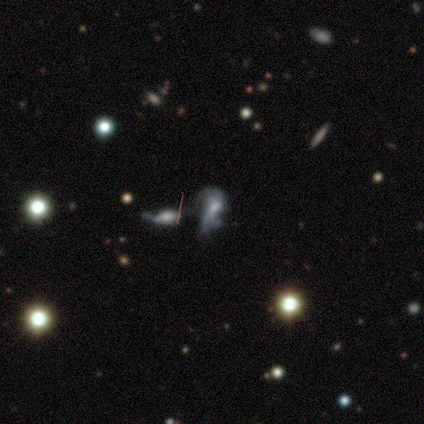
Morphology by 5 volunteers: Smooth or featured?
  - featured or disk: 60% *
  - star or artifact: 40%
  - smooth: 0%
Edge-on disk?
  - no: 100% *
  - yes: 0%
Bar?
  - no: 100% *
  - strong: 0%
  - weak: 0%
Spiral arms?
  - no: 67% *
  - yes: 33%
Bulge size?
  - large: 33% * (tied)
  - moderate: 33% * (tied)
  - small: 33% * (tied)
  - dominant: 0%
  - none: 0%
Merging?
  - major disturbance: 67% *
  - minor disturbance: 33%
  - none: 0%
  - merger: 0%